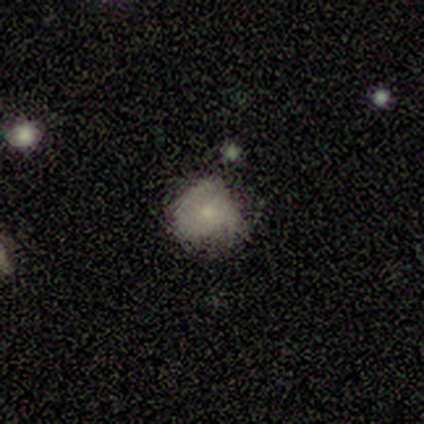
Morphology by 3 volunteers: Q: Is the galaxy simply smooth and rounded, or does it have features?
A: smooth — 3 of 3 (100%).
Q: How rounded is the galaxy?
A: round — 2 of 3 (67%).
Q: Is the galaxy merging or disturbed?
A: minor disturbance — 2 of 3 (67%).